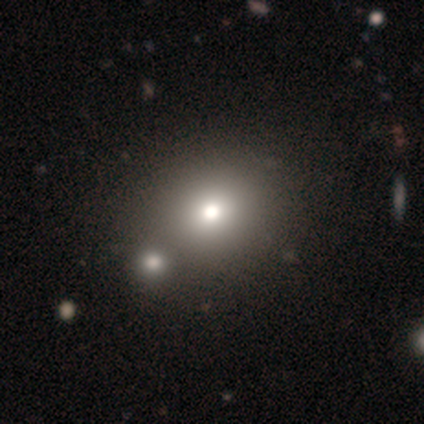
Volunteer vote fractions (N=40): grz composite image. It shows a smooth galaxy with no disk features (88%) that is round (83%). Merging: none (51%).